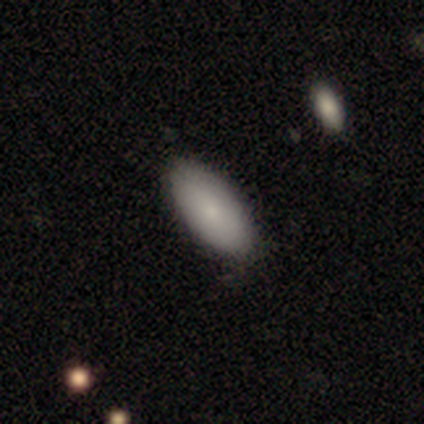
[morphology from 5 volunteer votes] smooth 60%, featured or disk 40%, star or artifact 0%. Down the decision tree: how rounded — in between (100%); merging — none (60%).